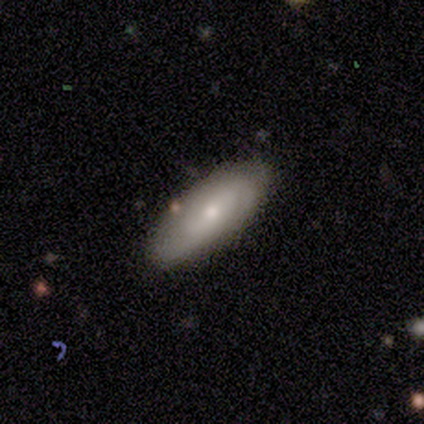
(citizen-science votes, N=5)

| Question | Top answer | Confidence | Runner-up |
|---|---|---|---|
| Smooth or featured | featured or disk | 60% | smooth (40%) |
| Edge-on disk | no | 67% | yes (33%) |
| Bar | no | 100% | — |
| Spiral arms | yes | 50% | tied: no (50%) |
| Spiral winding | tight | 100% | — |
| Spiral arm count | can't tell | 100% | — |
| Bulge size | moderate | 100% | — |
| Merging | none | 100% | — |